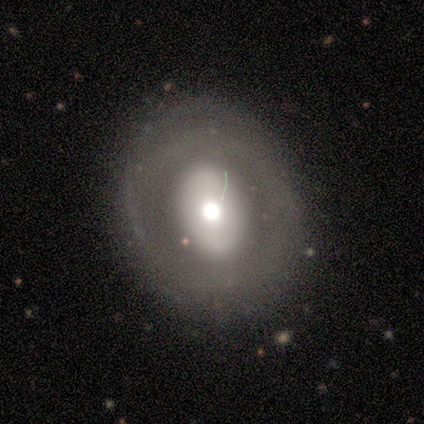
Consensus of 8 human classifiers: A featured or disk galaxy (62%) with no bar (100%), no spiral arms (100%) and a moderate central bulge (50%). Merging: none (100%).